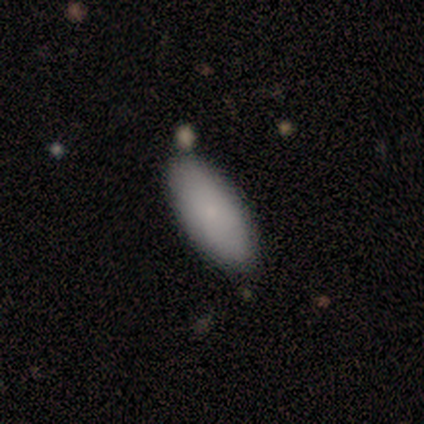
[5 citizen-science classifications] smooth-or-featured: smooth: 100% | featured or disk: 0% | star or artifact: 0%
  how-rounded: in between: 100% | round: 0% | cigar-shaped: 0%
  merging: none: 80% | minor disturbance: 20% | major disturbance: 0% | merger: 0%